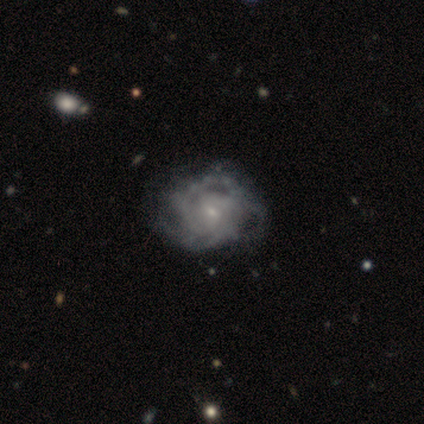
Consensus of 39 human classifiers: A featured or disk galaxy (95%) with a weak bar (49%, tied with no), 2 (35%, tied with can't tell) tight (56%) spiral arms (92%) and a small central bulge (84%). Merging: none (26%).